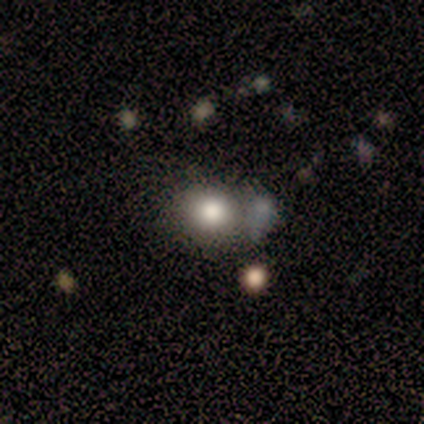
smooth-or-featured: smooth: 80% | featured or disk: 20% | star or artifact: 0%
  how-rounded: round: 75% | in between: 25% | cigar-shaped: 0%
  merging: none: 80% | minor disturbance: 20% | major disturbance: 0% | merger: 0%